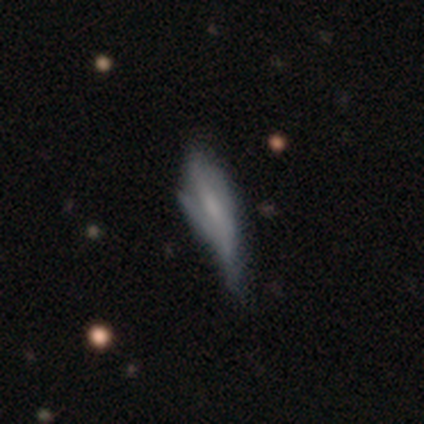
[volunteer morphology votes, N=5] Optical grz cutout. It shows a smooth galaxy with no disk features (80%) that is in between round and cigar-shaped (50%, tied with cigar-shaped). Merging: minor disturbance (75%).